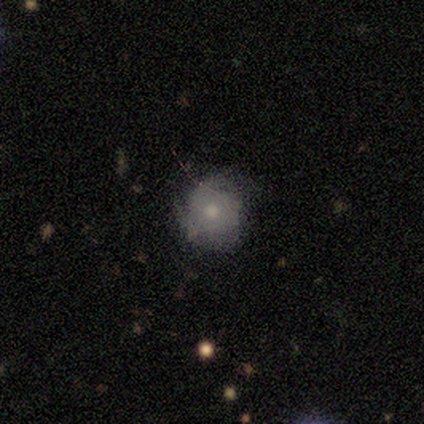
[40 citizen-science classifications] Smooth or featured?
  - smooth: 60% *
  - featured or disk: 35%
  - star or artifact: 5%
How rounded?
  - round: 88% *
  - in between: 12%
  - cigar-shaped: 0%
Merging?
  - none: 61% *
  - minor disturbance: 32%
  - major disturbance: 5%
  - merger: 3%